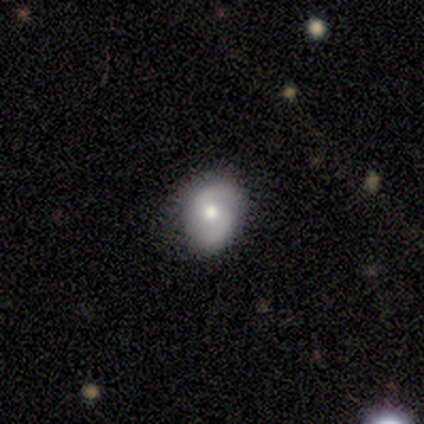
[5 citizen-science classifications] Volunteers were most divided on "smooth or featured" (2-way tie): smooth: 40%, featured or disk: 40%, star or artifact: 20%. More confident: how rounded — in between (100%); merging — none (75%).